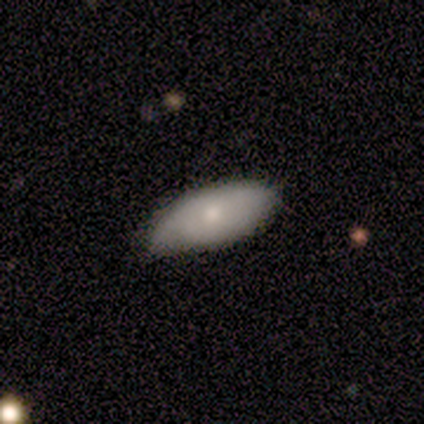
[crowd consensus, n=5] Smooth or featured? 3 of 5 (60%) said smooth. How rounded? 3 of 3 (100%) said in between. Merging? 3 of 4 (75%) said minor disturbance.